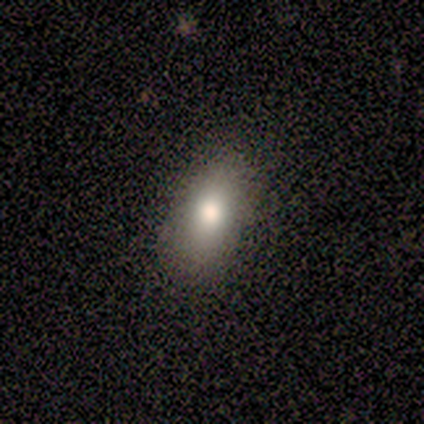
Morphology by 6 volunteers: Q: Smooth or featured?
A: smooth (100%)
Q: How rounded?
A: in between (100%)
Q: Merging?
A: none (83%); runner-up: minor disturbance (17%)